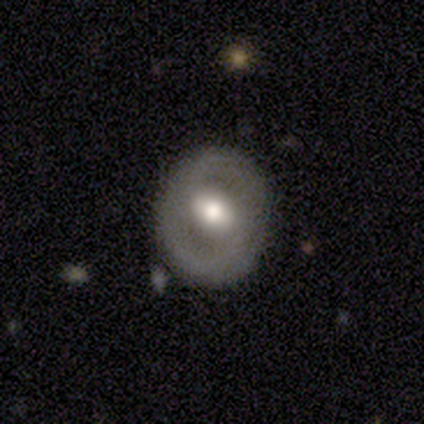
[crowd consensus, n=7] Volunteers were most divided on "bar" (2-way tie): strong: 40%, no: 40%, weak: 20%. More confident: edge-on disk — no (100%); merging — none (100%); smooth or featured — featured or disk (71%); spiral arms — no (60%); bulge size — moderate (60%).